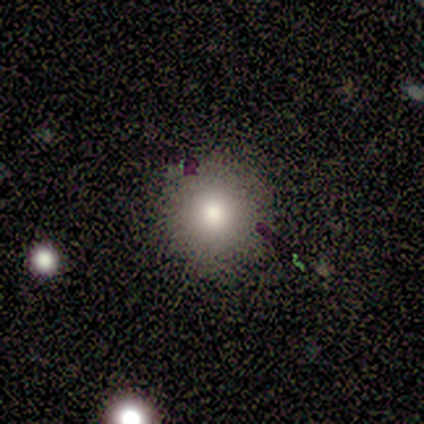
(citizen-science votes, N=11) A smooth galaxy with no disk features (91%) that is round (100%).

Vote fractions:
- Smooth or featured? smooth: 91% / featured or disk: 9% / star or artifact: 0%
- How rounded? round: 100% / in between: 0% / cigar-shaped: 0%
- Merging? none: 91% / minor disturbance: 9% / major disturbance: 0% / merger: 0%